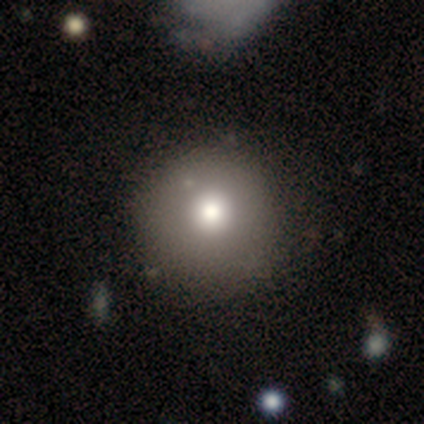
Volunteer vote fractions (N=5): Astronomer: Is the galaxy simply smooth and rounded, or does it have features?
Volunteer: smooth — 60%.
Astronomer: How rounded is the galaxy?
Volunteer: round — 100%.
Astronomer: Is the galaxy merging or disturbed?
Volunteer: none — 50%.